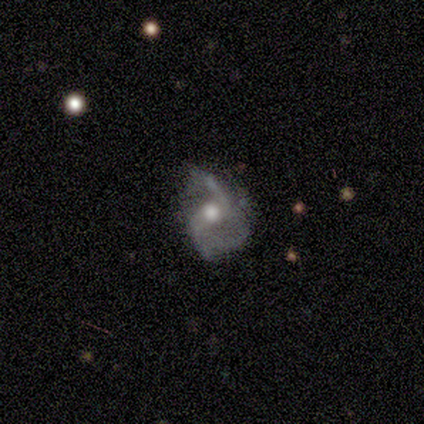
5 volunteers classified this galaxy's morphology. featured or disk 100%, smooth 0%, star or artifact 0%. Down the decision tree: edge-on disk — no (100%); bar — no (100%); spiral arms — yes (100%); spiral arm count — 2 (80%); spiral winding — loose (80%); bulge size — moderate (80%); merging — none (40%, tied with minor disturbance).